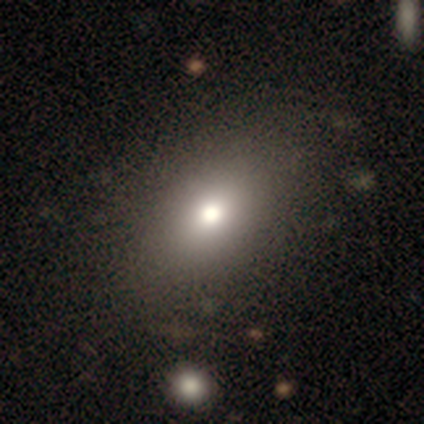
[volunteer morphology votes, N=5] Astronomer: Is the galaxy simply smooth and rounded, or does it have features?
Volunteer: smooth — 40%, tied with star or artifact at 40%.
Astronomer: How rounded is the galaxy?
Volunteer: in between — 100%.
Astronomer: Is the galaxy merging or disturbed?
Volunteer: none — 33%, tied with minor disturbance and major disturbance at 33%.